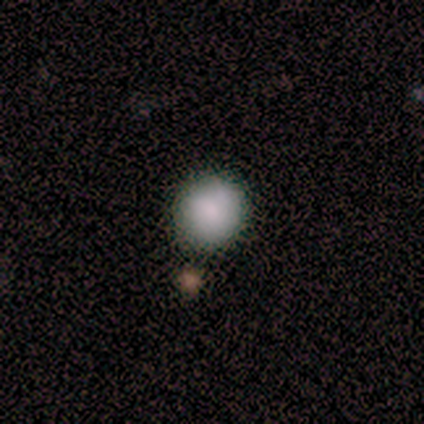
Smooth or featured?
  - smooth: 100% *
  - featured or disk: 0%
  - star or artifact: 0%
How rounded?
  - round: 100% *
  - in between: 0%
  - cigar-shaped: 0%
Merging?
  - none: 100% *
  - minor disturbance: 0%
  - major disturbance: 0%
  - merger: 0%